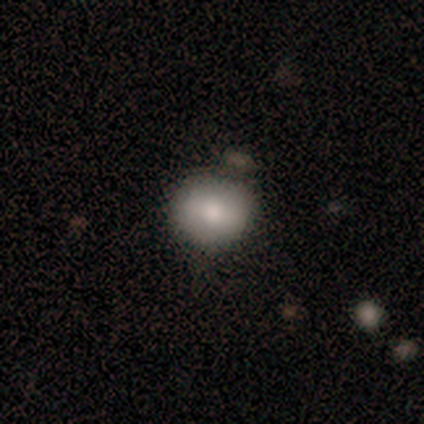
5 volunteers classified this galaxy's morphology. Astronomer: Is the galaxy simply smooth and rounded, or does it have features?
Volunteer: smooth — 60% (runner-up: featured or disk, 40%).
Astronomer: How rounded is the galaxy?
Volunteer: round — 100%.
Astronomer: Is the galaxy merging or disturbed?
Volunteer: none — 60% (runner-up: minor disturbance, 40%).